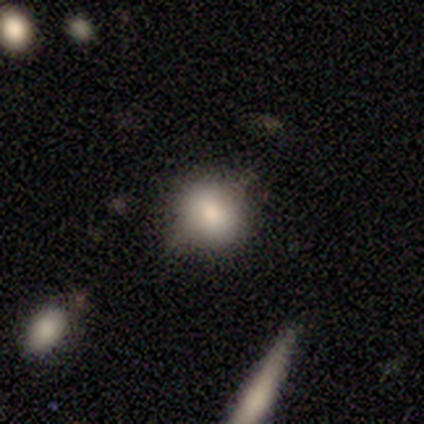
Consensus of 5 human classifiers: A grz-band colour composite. It shows a smooth galaxy with no disk features (100%) that is round (60%). Merging: none (40%, tied with minor disturbance).